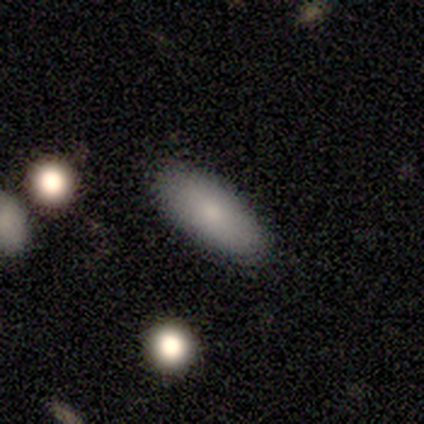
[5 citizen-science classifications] This appears to be a smooth galaxy with no disk features (80%) that is in between round and cigar-shaped (50%, tied with cigar-shaped). Merging: none (100%).